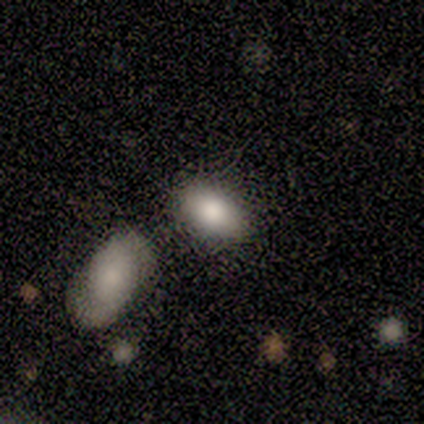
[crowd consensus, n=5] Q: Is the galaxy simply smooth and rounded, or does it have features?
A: smooth — 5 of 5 (100%).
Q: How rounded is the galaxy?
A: in between — 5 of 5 (100%).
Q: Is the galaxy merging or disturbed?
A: none — 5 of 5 (100%).